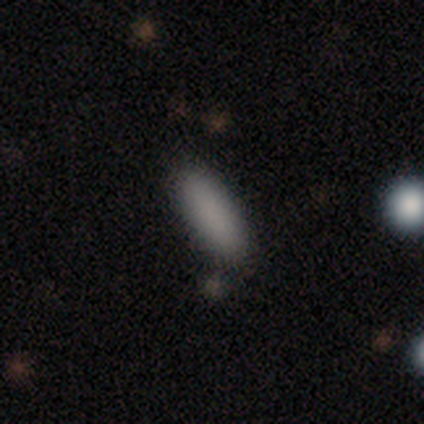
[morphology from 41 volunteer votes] type=smooth (85%); roundness=in between (69%); merging=none (78%).